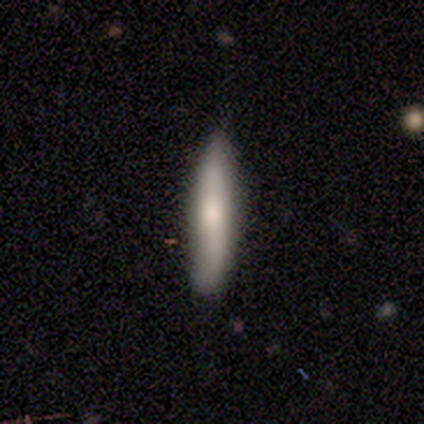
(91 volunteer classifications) Volunteers were most divided on "smooth or featured": smooth: 62%, featured or disk: 32%, star or artifact: 7%. More confident: how rounded — cigar-shaped (98%); merging — none (72%).